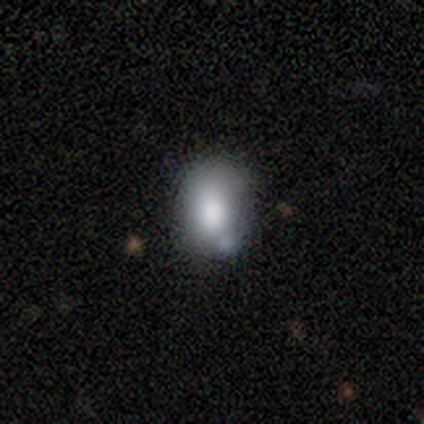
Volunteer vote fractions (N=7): Q: Smooth or featured?
A: smooth (43%); tied with: featured or disk (43%)
Q: How rounded?
A: in between (100%)
Q: Merging?
A: minor disturbance (50%); runner-up: none (33%)